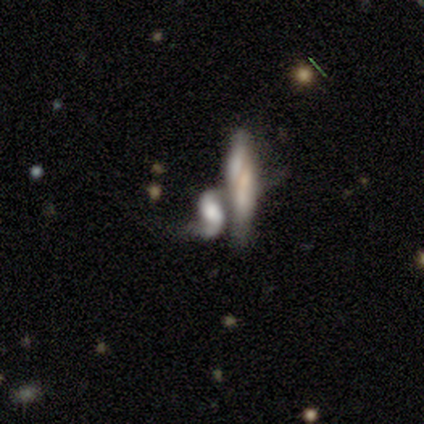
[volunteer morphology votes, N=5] Smooth or featured? featured or disk (60%)
Edge-on disk? no (100%)
Bar? weak (67%)
Spiral arms? yes (100%)
Spiral winding? loose (100%)
Spiral arm count? 2 (100%)
Bulge size? none (67%)
Merging? merger (100%)